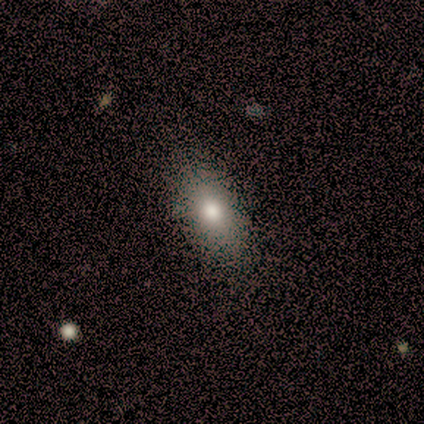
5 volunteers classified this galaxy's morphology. A smooth galaxy with no disk features (80%) that is in between round and cigar-shaped (75%). Merging: none (75%).